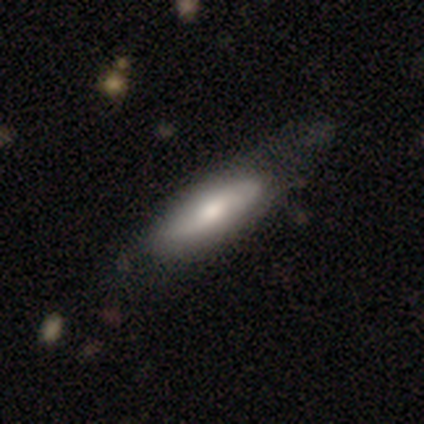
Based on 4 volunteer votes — Volunteers were most divided on "smooth or featured" (2-way tie): smooth: 50%, featured or disk: 50%, star or artifact: 0%. More confident: how rounded — in between (100%); merging — none (75%).